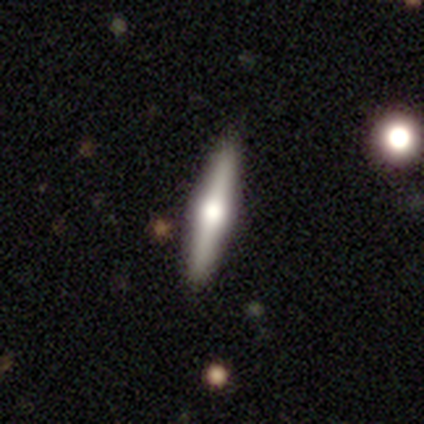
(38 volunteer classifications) A featured or disk galaxy (71%) viewed edge-on (100%) with a rounded central bulge (93%). Merging: none (94%).